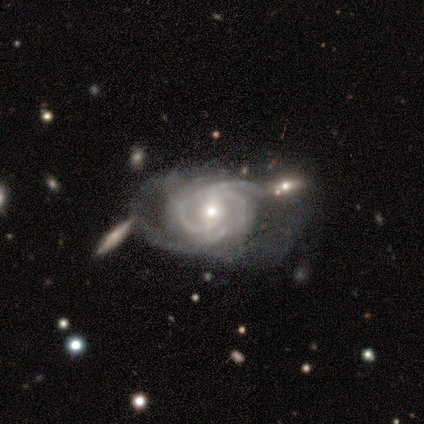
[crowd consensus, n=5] featured or disk 100%, smooth 0%, star or artifact 0%. Down the decision tree: edge-on disk — no (100%); bar — no (60%); spiral arms — yes (100%); spiral arm count — 2 (40%, tied with can't tell); spiral winding — tight (80%); bulge size — small (60%); merging — minor disturbance (60%).